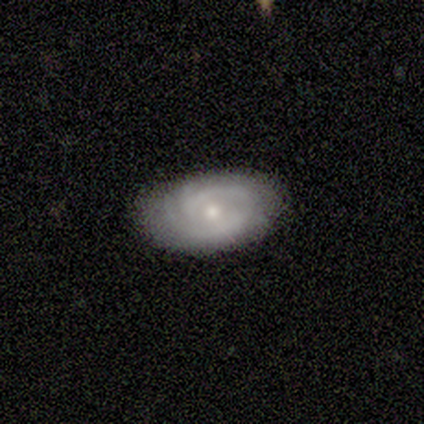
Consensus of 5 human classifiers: Volunteers were most divided on "bar": no: 67%, strong: 33%, weak: 0%. More confident: spiral arms — yes (100%); smooth or featured — featured or disk (80%); merging — none (80%); edge-on disk — no (75%); spiral winding — medium (67%); spiral arm count — 2 (67%); bulge size — small (67%).